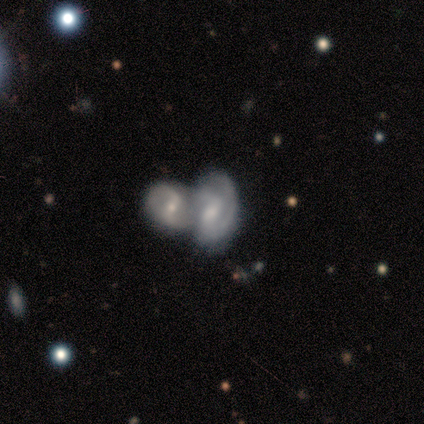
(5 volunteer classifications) Smooth or featured?
  - featured or disk: 60% *
  - smooth: 20%
  - star or artifact: 20%
Edge-on disk?
  - no: 100% *
  - yes: 0%
Bar?
  - strong: 67% *
  - no: 33%
  - weak: 0%
Spiral arms?
  - yes: 100% *
  - no: 0%
Spiral winding?
  - loose: 67% *
  - medium: 33%
  - tight: 0%
Spiral arm count?
  - 2: 100% *
  - 1: 0%
  - 3: 0%
  - 4: 0%
  - more than 4: 0%
  - can't tell: 0%
Bulge size?
  - small: 67% *
  - moderate: 33%
  - dominant: 0%
  - large: 0%
  - none: 0%
Merging?
  - none: 50% * (tied)
  - merger: 50% * (tied)
  - minor disturbance: 0%
  - major disturbance: 0%